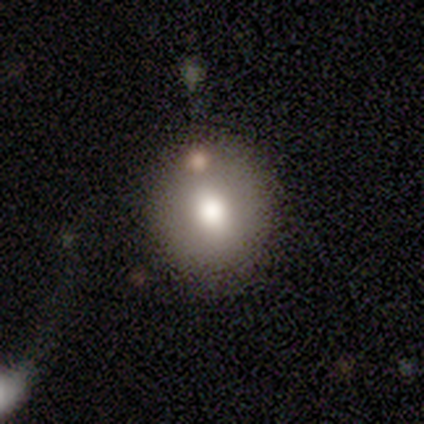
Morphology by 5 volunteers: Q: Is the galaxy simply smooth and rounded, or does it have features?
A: featured or disk — 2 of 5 (40%, tied with star or artifact).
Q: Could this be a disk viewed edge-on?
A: no — 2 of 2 (100%).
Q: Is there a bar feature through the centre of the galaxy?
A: no — 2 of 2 (100%).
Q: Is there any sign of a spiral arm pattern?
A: no — 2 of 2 (100%).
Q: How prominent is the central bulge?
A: large — 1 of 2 (50%, tied with moderate).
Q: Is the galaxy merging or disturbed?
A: none — 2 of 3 (67%).